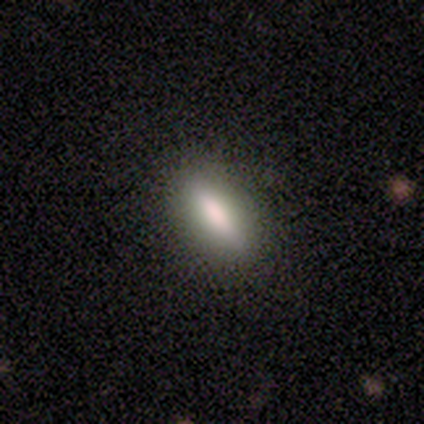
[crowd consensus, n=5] Smooth or featured? smooth (60%)
How rounded? cigar-shaped (100%)
Merging? none (50%)